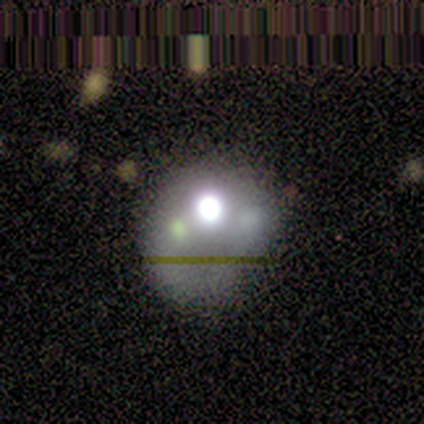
Smooth or featured? 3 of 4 (75%) said star or artifact.